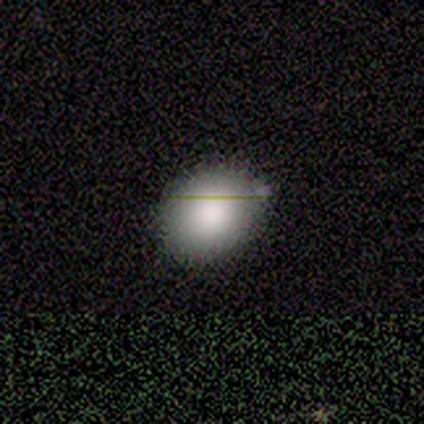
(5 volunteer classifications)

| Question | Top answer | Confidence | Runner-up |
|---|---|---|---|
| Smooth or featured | smooth | 100% | — |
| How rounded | round | 100% | — |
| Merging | none | 80% | minor disturbance (20%) |